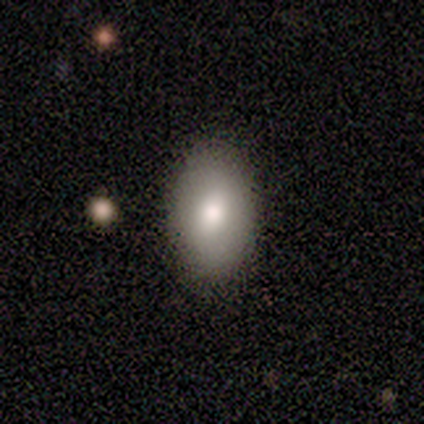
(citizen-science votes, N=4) Overall: smooth (50%, tied with featured or disk). How rounded: in between (100%). Merging: none (100%).